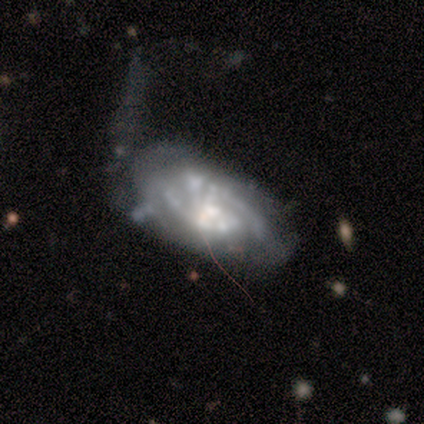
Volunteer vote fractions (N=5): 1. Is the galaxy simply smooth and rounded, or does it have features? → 80% featured or disk, 20% smooth, 0% star or artifact.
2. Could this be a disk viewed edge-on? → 100% no, 0% yes.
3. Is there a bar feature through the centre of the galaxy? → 75% weak, 25% no, 0% strong.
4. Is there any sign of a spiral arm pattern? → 75% yes, 25% no.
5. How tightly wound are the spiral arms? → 33% tight (tied), 33% medium (tied), 33% loose (tied).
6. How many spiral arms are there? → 33% 1 (tied), 33% 2 (tied), 33% can't tell (tied), 0% 3, 0% 4, 0% more than 4.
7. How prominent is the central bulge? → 50% moderate (tied), 50% small (tied), 0% dominant, 0% large, 0% none.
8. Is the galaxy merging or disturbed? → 60% major disturbance, 20% none, 20% minor disturbance, 0% merger.